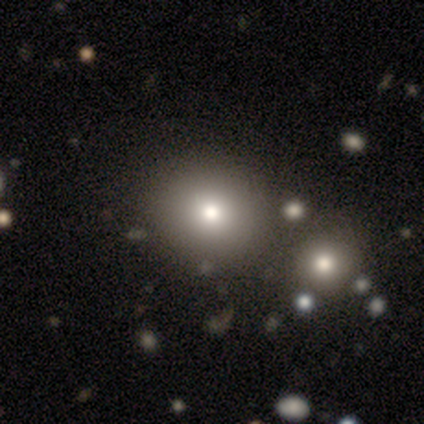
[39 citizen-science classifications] smooth 74%, star or artifact 15%, featured or disk 10%. Down the decision tree: how rounded — round (97%); merging — none (76%).